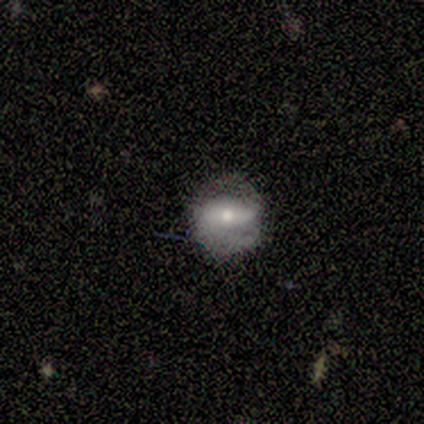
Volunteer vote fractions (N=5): A featured or disk galaxy (60%) with a weak bar (67%), no spiral arms (67%) and a moderate central bulge (67%).

Vote fractions:
- Smooth or featured? featured or disk: 60% / smooth: 40% / star or artifact: 0%
- Edge-on disk? no: 100% / yes: 0%
- Bar? weak: 67% / no: 33% / strong: 0%
- Spiral arms? no: 67% / yes: 33%
- Bulge size? moderate: 67% / large: 33% / dominant: 0% / small: 0% / none: 0%
- Merging? none: 80% / minor disturbance: 20% / major disturbance: 0% / merger: 0%